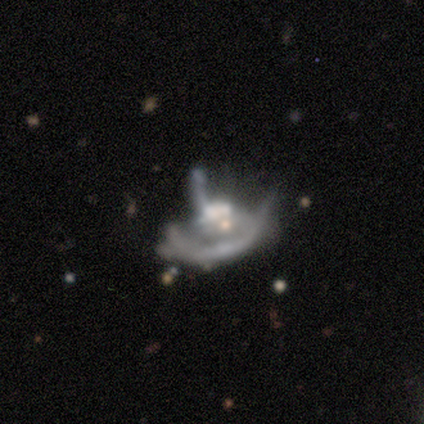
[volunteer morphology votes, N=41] Q: Smooth or featured?
A: featured or disk (76%); runner-up: smooth (15%)
Q: Edge-on disk?
A: no (97%); runner-up: yes (3%)
Q: Bar?
A: no (87%); runner-up: weak (10%)
Q: Spiral arms?
A: no (63%); runner-up: yes (37%)
Q: Bulge size?
A: moderate (47%); runner-up: none (23%)
Q: Merging?
A: major disturbance (49%); runner-up: merger (41%)